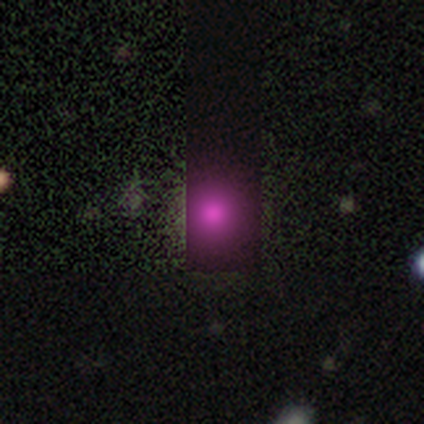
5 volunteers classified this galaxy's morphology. Q: Smooth or featured?
A: star or artifact (80%); runner-up: smooth (20%)